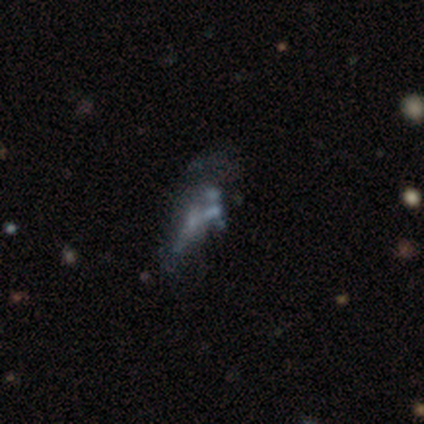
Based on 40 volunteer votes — smooth_or_featured: featured or disk (p=0.50) [alt: smooth p=0.25]
disk_edge_on: no (p=1.00)
bar: no (p=0.95) [alt: weak p=0.05]
has_spiral_arms: no (p=1.00)
bulge_size: none (p=0.70) [alt: small p=0.20]
merging: none (p=0.40) [alt: major disturbance p=0.23]